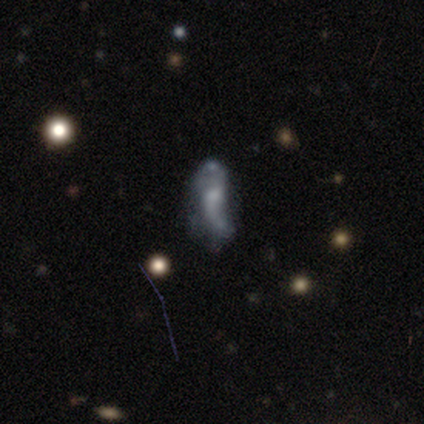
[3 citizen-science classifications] A featured or disk galaxy (100%) with a weak bar (50%, tied with no), 2 (100%) loose (100%) spiral arms (100%) and a small central bulge (100%). Merging: none (33%, tied with minor disturbance and major disturbance).